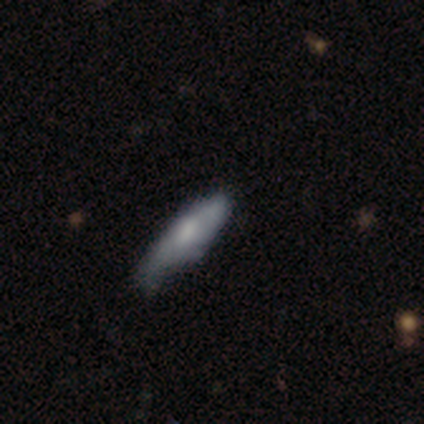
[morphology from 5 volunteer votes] Q: Smooth or featured?
A: smooth (60%); runner-up: featured or disk (40%)
Q: How rounded?
A: cigar-shaped (67%); runner-up: in between (33%)
Q: Merging?
A: minor disturbance (60%); runner-up: none (40%)